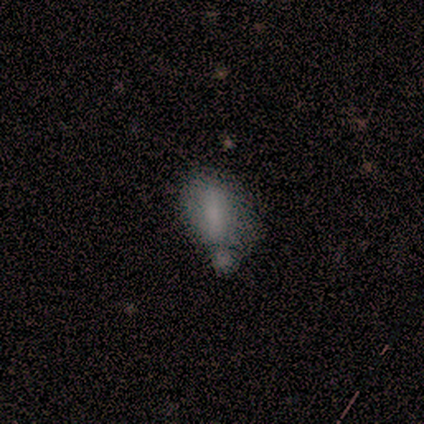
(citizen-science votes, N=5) Morphology: type=smooth (40%, tied with featured or disk); roundness=in between (50%, tied with cigar-shaped); merging=merger (50%).